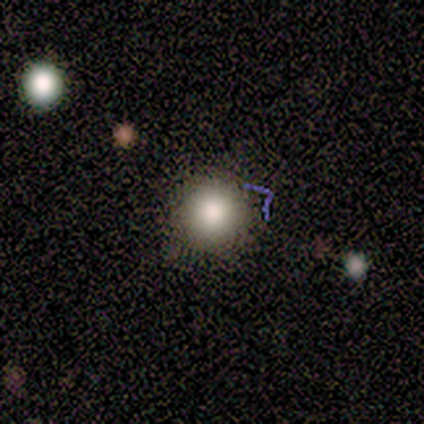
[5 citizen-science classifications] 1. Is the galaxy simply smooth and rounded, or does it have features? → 60% smooth, 20% featured or disk, 20% star or artifact.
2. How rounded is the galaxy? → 100% round, 0% in between, 0% cigar-shaped.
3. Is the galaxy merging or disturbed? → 50% none, 25% minor disturbance, 25% merger, 0% major disturbance.